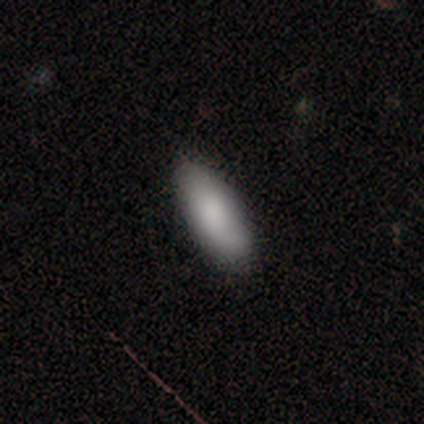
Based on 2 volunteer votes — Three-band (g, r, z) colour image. It shows a smooth galaxy with no disk features (50%, tied with featured or disk) that is in between round and cigar-shaped (100%). Merging: none (50%, tied with minor disturbance).